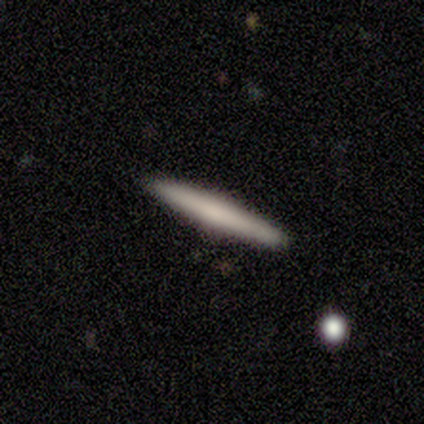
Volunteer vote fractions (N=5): Morphology: type=smooth (100%); roundness=cigar-shaped (100%); merging=none (100%).